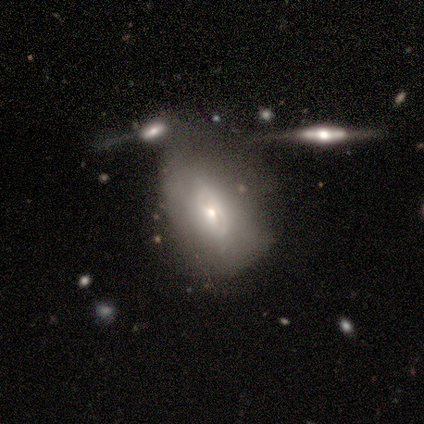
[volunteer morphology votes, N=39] Smooth or featured?
  - smooth: 54% *
  - featured or disk: 38%
  - star or artifact: 8%
How rounded?
  - in between: 90% *
  - round: 10%
  - cigar-shaped: 0%
Merging?
  - minor disturbance: 42% *
  - none: 25%
  - major disturbance: 19%
  - merger: 14%